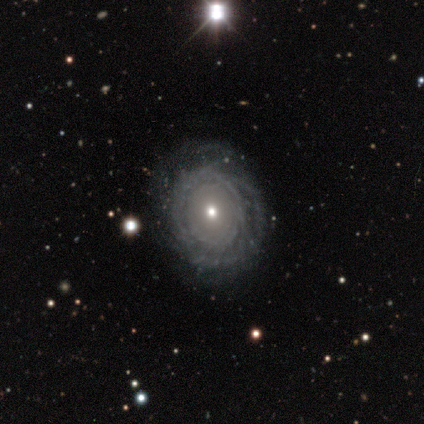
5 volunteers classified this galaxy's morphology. Overall: featured or disk (80%). Edge-on disk: no (100%). Bar: no (75%). Spiral arms: yes (75%). Spiral arm count: more than 4 (67%; can't tell 33%). Spiral winding: tight (67%; loose 33%). Bulge size: moderate (50%, tied with small). Merging: none (60%; minor disturbance 20%).